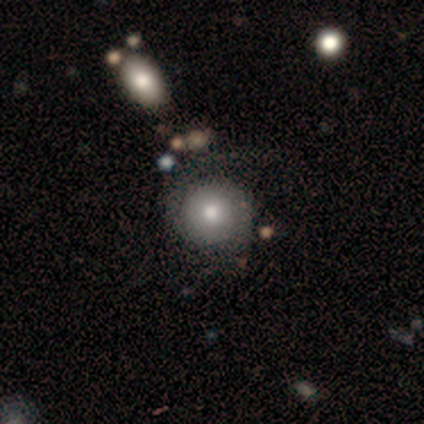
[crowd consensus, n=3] Volunteers were most divided on "smooth or featured" (3-way tie): smooth: 33%, featured or disk: 33%, star or artifact: 33%; "merging" (2-way tie): none: 50%, major disturbance: 50%, minor disturbance: 0%, merger: 0%. More confident: how rounded — round (100%).